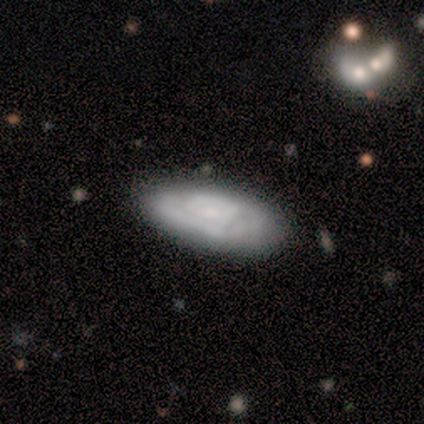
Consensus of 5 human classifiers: Q: Smooth or featured?
A: smooth (60%); runner-up: featured or disk (40%)
Q: How rounded?
A: in between (100%)
Q: Merging?
A: none (80%); runner-up: minor disturbance (20%)